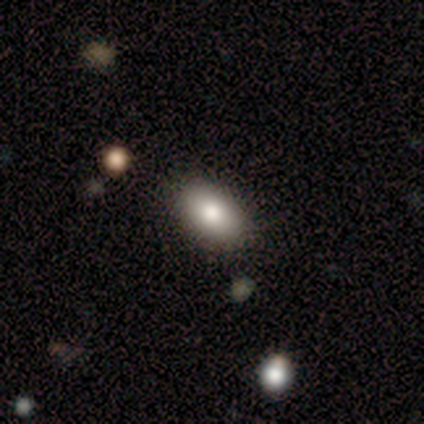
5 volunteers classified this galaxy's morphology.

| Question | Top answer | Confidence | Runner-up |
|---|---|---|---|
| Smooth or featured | smooth | 100% | — |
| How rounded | in between | 100% | — |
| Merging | none | 100% | — |